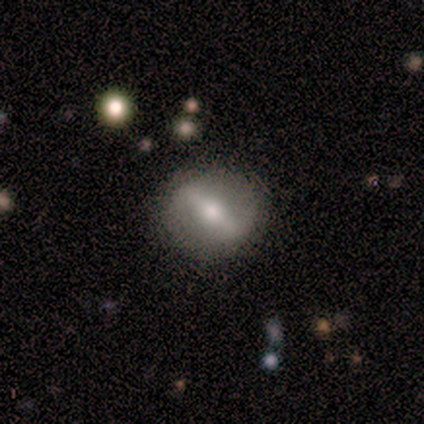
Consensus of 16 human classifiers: Q: Smooth or featured?
A: featured or disk (69%); runner-up: smooth (25%)
Q: Edge-on disk?
A: no (82%); runner-up: yes (18%)
Q: Bar?
A: strong (78%); runner-up: weak (22%)
Q: Spiral arms?
A: no (78%); runner-up: yes (22%)
Q: Bulge size?
A: moderate (56%); runner-up: small (22%)
Q: Merging?
A: none (87%); runner-up: minor disturbance (7%)